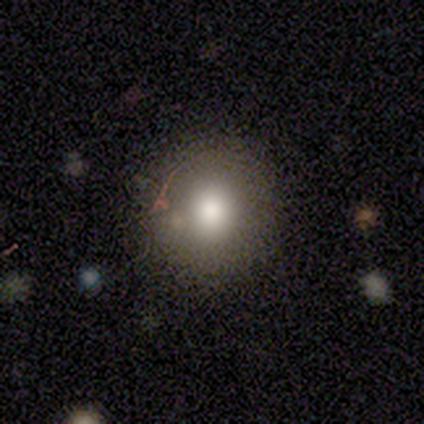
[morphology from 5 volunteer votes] This appears to be a smooth galaxy with no disk features (80%) that is round (100%). Merging: none (100%).